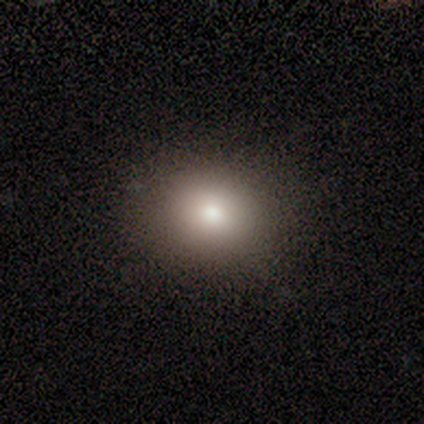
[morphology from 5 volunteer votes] Smooth or featured: smooth — 80% (star or artifact — 20%)
How rounded: round — 75% (in between — 25%)
Merging: none — 100%